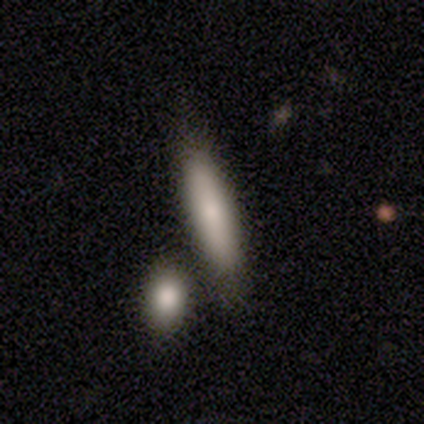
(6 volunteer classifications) Volunteers were most divided on "how rounded": cigar-shaped: 67%, in between: 33%, round: 0%. More confident: smooth or featured — smooth (100%); merging — none (67%).